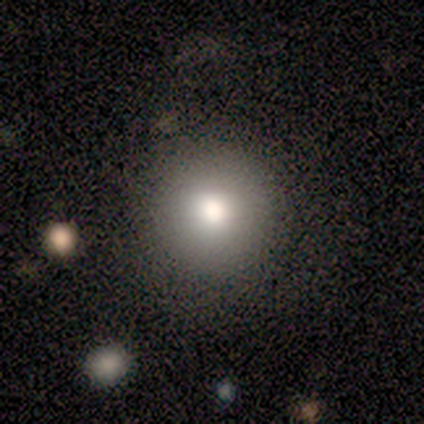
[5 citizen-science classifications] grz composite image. It shows a smooth galaxy with no disk features (100%) that is round (100%). Merging: none (80%).